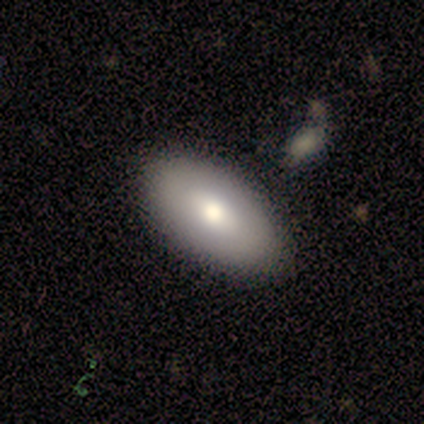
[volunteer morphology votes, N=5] Smooth or featured: featured or disk — 60% (smooth — 40%)
Edge-on disk: no — 100%
Bar: weak — 67% (no — 33%)
Spiral arms: no — 100%
Bulge size: moderate — 67% (small — 33%)
Merging: none — 80% (minor disturbance — 20%)